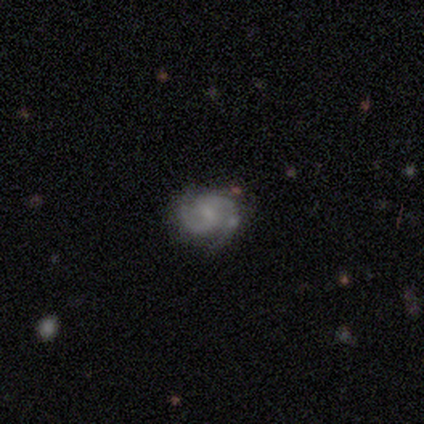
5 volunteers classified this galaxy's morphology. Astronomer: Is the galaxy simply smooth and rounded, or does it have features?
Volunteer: featured or disk — 80%.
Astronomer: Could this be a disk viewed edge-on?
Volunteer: no — 100%.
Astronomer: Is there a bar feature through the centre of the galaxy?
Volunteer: no — 75%.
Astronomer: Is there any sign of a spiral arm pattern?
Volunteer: yes — 100%.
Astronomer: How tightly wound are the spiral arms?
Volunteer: medium — 75%.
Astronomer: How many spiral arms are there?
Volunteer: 2 — 75%.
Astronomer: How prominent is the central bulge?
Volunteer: small — 75%.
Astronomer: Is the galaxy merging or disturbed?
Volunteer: none — 50%.